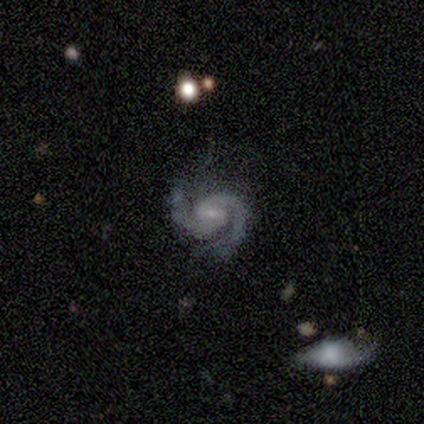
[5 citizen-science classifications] smooth-or-featured: featured or disk: 80% | star or artifact: 20% | smooth: 0%
  disk-edge-on: no: 100% | yes: 0%
    bar: weak: 75% | strong: 25% | no: 0%
    has-spiral-arms: yes: 100% | no: 0%
      spiral-winding: tight: 50% (tied) | medium: 50% (tied) | loose: 0%
      spiral-arm-count: 2: 100% | 1: 0% | 3: 0% | 4: 0% | more than 4: 0% | can't tell: 0%
    bulge-size: small: 75% | moderate: 25% | dominant: 0% | large: 0% | none: 0%
  merging: none: 50% | minor disturbance: 25% | major disturbance: 25% | merger: 0%